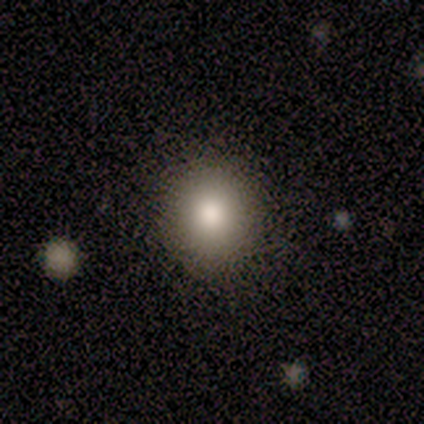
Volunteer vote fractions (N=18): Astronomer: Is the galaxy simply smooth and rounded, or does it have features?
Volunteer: smooth — 94%.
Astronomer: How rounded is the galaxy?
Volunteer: round — 88%.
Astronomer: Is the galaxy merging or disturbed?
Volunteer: none — 83%.